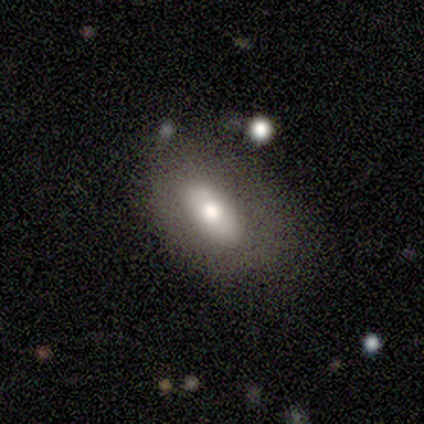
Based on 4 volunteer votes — Overall: smooth (50%, tied with featured or disk). How rounded: in between (100%). Merging: none (75%).